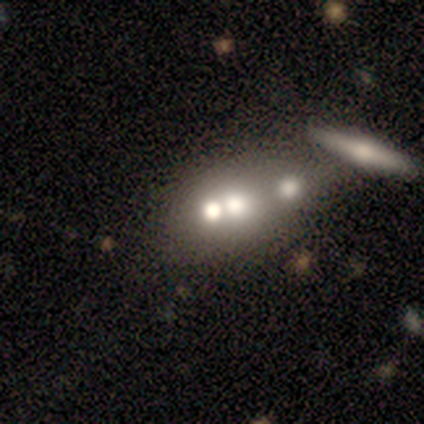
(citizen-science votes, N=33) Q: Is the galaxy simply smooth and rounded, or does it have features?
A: smooth — 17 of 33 (52%).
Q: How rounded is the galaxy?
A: round — 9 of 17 (53%).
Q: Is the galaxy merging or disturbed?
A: merger — 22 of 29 (76%).